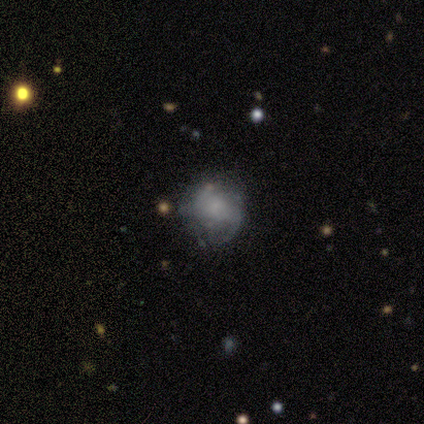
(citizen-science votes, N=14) featured or disk 50%, smooth 43%, star or artifact 7%. Down the decision tree: edge-on disk — no (100%); bar — no (57%); spiral arms — no (57%); bulge size — small (43%, tied with none); merging — none (69%).